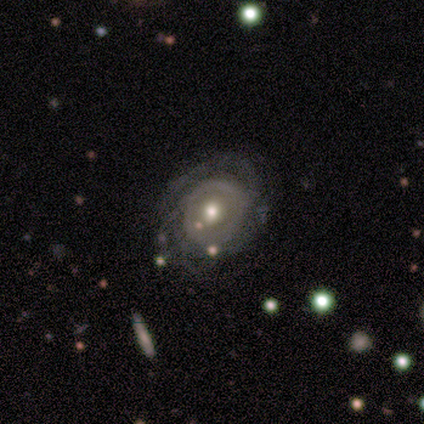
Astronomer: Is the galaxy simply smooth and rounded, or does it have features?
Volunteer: featured or disk — 100%.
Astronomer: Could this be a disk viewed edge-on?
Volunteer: no — 100%.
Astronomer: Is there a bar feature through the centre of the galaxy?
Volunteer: no — 90%.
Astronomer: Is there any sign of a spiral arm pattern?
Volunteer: yes — 60% (runner-up: no, 40%).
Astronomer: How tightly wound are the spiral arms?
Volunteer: tight — 33%, tied with medium and loose at 33%.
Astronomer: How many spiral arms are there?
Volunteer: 3 — 67%.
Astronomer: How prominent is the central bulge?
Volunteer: moderate — 70%.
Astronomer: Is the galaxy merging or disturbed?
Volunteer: none — 70%.